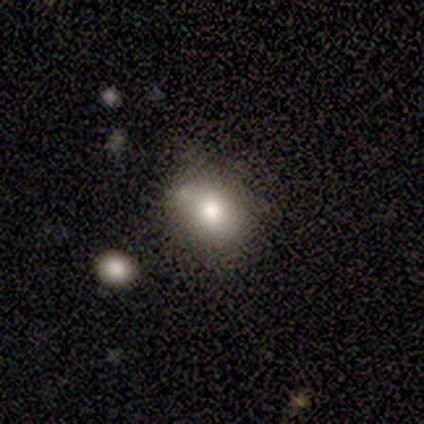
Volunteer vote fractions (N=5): Smooth or featured? 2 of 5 (40%, tied with star or artifact) said smooth. How rounded? 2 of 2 (100%) said in between. Merging? 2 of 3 (67%) said minor disturbance.